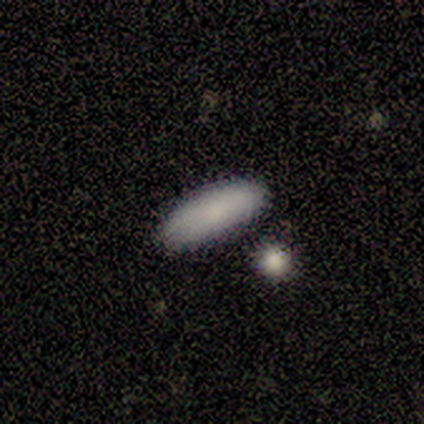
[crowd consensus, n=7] Smooth or featured: smooth — 100%
How rounded: in between — 71% (cigar-shaped — 29%)
Merging: none — 86% (minor disturbance — 14%)